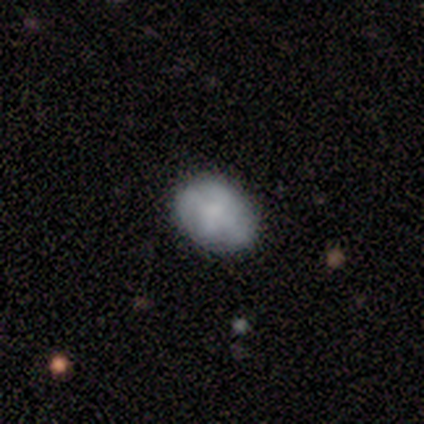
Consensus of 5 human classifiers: Q: Smooth or featured?
A: smooth (60%); runner-up: featured or disk (40%)
Q: How rounded?
A: in between (100%)
Q: Merging?
A: none (100%)